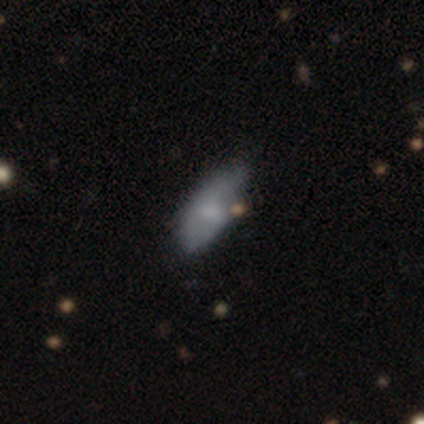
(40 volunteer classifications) Smooth or featured: smooth — 70% (featured or disk — 22%)
How rounded: in between — 82% (cigar-shaped — 14%)
Merging: none — 54% (minor disturbance — 35%)